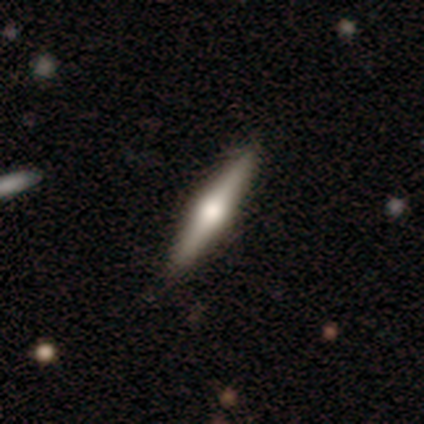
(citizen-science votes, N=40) Overall: featured or disk (65%; smooth 28%). Edge-on disk: yes (92%). Edge-on bulge: rounded (100%). Merging: none (92%).